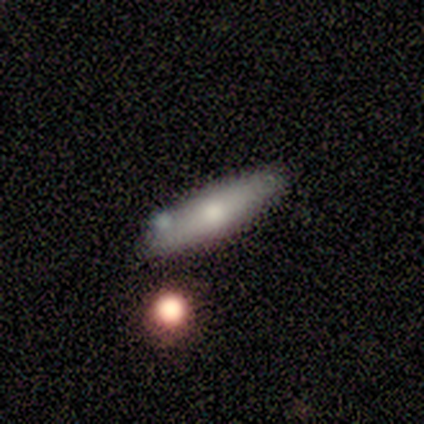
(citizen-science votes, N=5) Overall: smooth (60%; featured or disk 40%). How rounded: cigar-shaped (100%). Merging: none (100%).